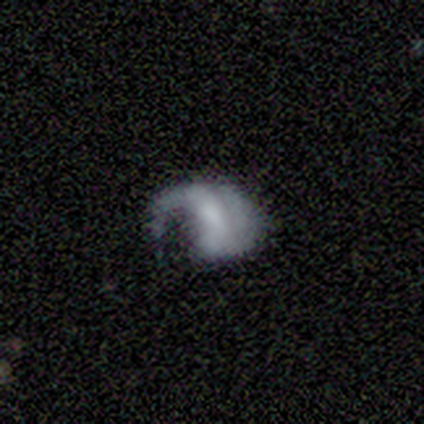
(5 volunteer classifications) Smooth or featured?
  - smooth: 40% * (tied)
  - featured or disk: 40% * (tied)
  - star or artifact: 20%
How rounded?
  - round: 100% *
  - in between: 0%
  - cigar-shaped: 0%
Merging?
  - major disturbance: 75% *
  - minor disturbance: 25%
  - none: 0%
  - merger: 0%